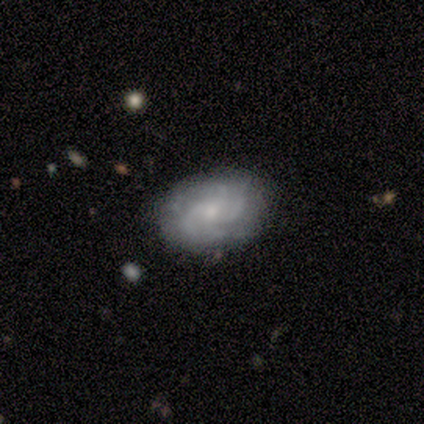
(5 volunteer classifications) featured or disk 60%, smooth 40%, star or artifact 0%. Down the decision tree: edge-on disk — no (100%); bar — no (67%); spiral arms — yes (100%); spiral arm count — 2 (67%); spiral winding — medium (100%); bulge size — small (100%); merging — none (100%).